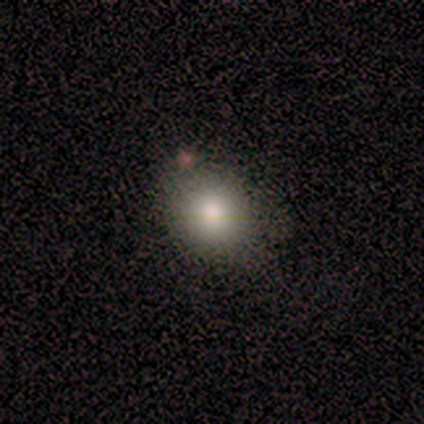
Morphology: type=smooth (86%); roundness=round (83%); merging=none (83%).